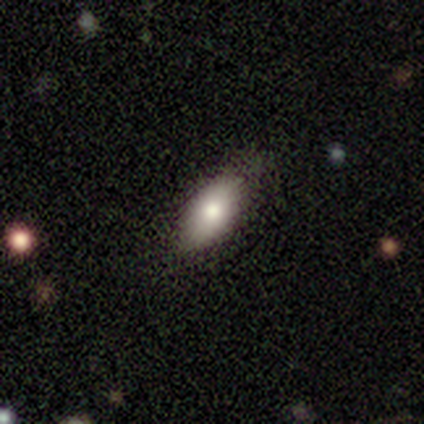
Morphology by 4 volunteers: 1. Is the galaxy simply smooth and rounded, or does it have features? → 75% smooth, 25% featured or disk, 0% star or artifact.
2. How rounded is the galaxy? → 100% in between, 0% round, 0% cigar-shaped.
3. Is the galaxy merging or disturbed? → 75% none, 25% minor disturbance, 0% major disturbance, 0% merger.